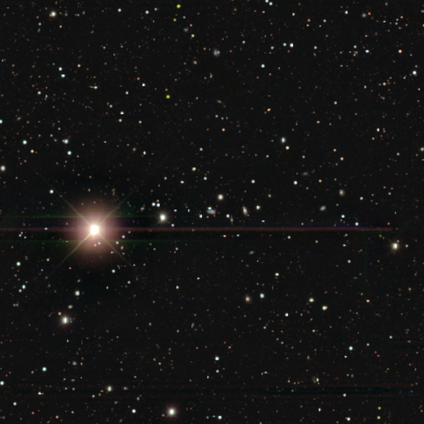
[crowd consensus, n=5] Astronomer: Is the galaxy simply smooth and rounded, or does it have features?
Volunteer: star or artifact — 60% (runner-up: smooth, 40%).